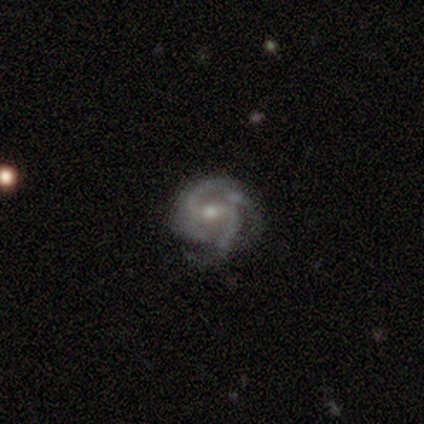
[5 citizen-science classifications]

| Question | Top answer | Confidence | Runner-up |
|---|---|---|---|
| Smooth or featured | featured or disk | 100% | — |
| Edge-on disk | no | 100% | — |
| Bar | strong | 60% | weak (40%) |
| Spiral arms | yes | 100% | — |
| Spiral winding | tight | 60% | medium (20%) |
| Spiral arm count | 2 | 40% | tied: can't tell (40%) |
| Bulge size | moderate | 80% | small (20%) |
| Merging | none | 100% | — |